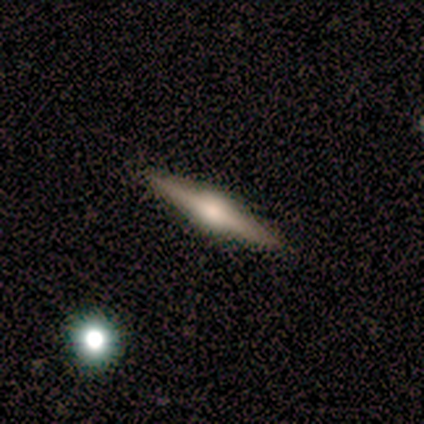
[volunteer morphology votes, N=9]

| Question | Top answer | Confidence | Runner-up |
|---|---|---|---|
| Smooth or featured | featured or disk | 78% | smooth (22%) |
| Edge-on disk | yes | 100% | — |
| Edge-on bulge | rounded | 100% | — |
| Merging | none | 89% | minor disturbance (11%) |